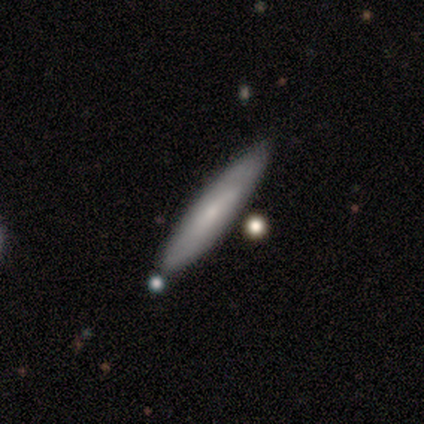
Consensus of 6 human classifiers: smooth 83%, featured or disk 17%, star or artifact 0%. Down the decision tree: how rounded — cigar-shaped (100%); merging — none (100%).